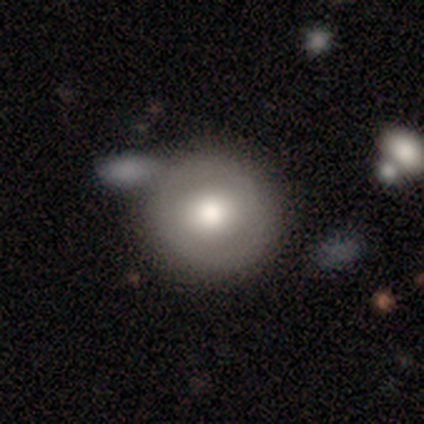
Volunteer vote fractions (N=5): Smooth or featured? 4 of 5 (80%) said smooth. How rounded? 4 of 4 (100%) said round. Merging? 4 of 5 (80%) said none.